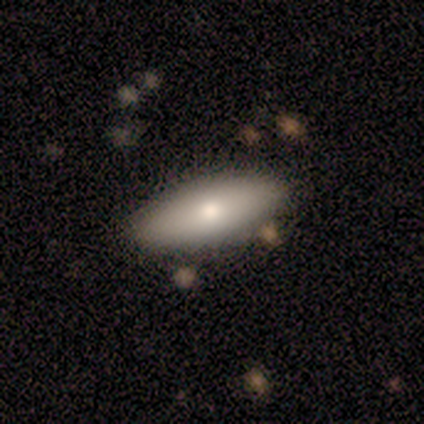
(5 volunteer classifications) smooth-or-featured: smooth: 60% | featured or disk: 40% | star or artifact: 0%
  how-rounded: in between: 67% | cigar-shaped: 33% | round: 0%
  merging: none: 100% | minor disturbance: 0% | major disturbance: 0% | merger: 0%